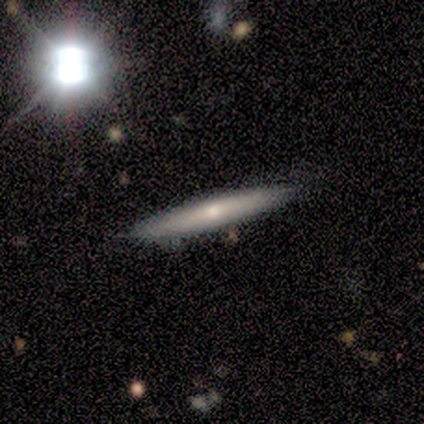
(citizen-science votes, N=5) smooth_or_featured: smooth (p=0.40) [tied with: featured or disk p=0.40]
how_rounded: cigar-shaped (p=1.00)
merging: none (p=1.00)